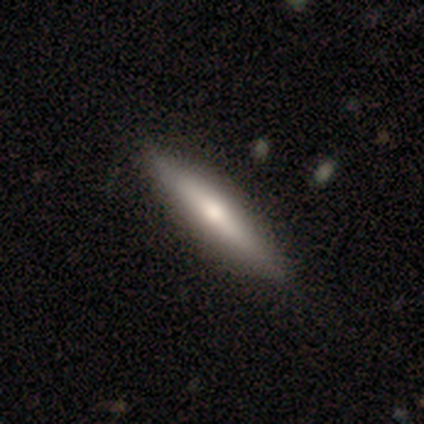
smooth-or-featured: smooth: 73% | star or artifact: 18% | featured or disk: 9%
  how-rounded: cigar-shaped: 100% | round: 0% | in between: 0%
  merging: none: 78% | minor disturbance: 22% | major disturbance: 0% | merger: 0%